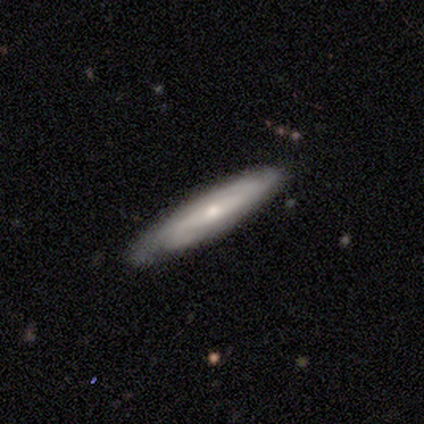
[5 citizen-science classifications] This appears to be a featured or disk galaxy (80%) with a strong bar (33%, tied with weak and no), 2 (67%) medium (67%) spiral arms (100%) and a small central bulge (67%). Merging: none (60%).